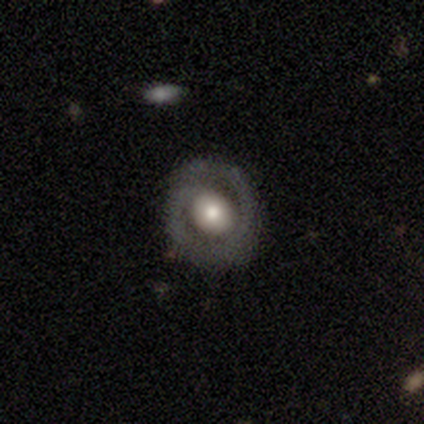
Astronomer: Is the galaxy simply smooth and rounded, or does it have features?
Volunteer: featured or disk — 78%.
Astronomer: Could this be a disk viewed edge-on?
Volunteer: no — 97%.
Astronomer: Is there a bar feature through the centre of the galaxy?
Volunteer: no — 75%.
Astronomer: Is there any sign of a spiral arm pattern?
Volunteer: yes — 61% (runner-up: no, 39%).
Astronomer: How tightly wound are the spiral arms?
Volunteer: tight — 53% (runner-up: medium, 29%).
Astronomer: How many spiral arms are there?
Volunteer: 1 — 65%.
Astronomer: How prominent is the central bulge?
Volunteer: moderate — 57% (runner-up: large, 32%).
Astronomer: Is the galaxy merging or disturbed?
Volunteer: none — 77%.